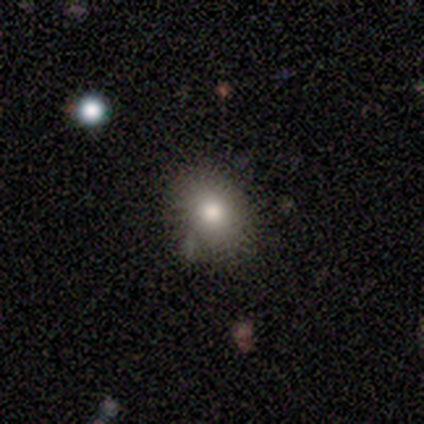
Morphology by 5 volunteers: Smooth or featured? 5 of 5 (100%) said smooth. How rounded? 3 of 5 (60%) said round. Merging? 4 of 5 (80%) said none.